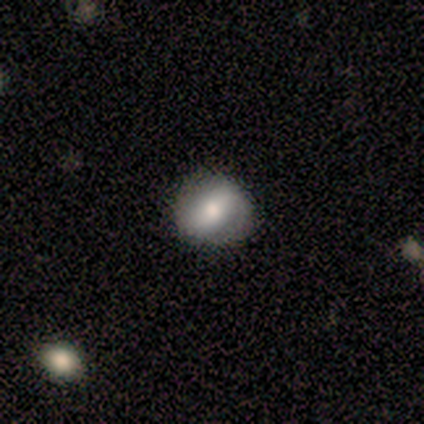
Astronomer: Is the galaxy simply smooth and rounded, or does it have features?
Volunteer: smooth — 33%, tied with featured or disk and star or artifact at 33%.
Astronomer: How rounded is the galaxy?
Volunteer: round — 100%.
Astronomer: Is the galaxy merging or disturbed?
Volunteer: none — 100%.